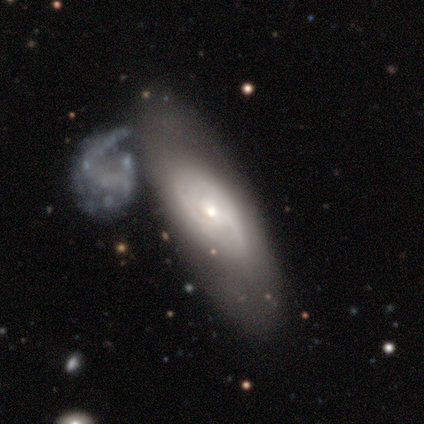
Smooth or featured: featured or disk — 75% (smooth — 25%)
Edge-on disk: no — 100%
Bar: no — 100%
Spiral arms: yes — 100%
Spiral winding: tight — 100%
Spiral arm count: 2 — 67% (can't tell — 33%)
Bulge size: small — 67% (moderate — 33%)
Merging: none — 75% (minor disturbance — 25%)